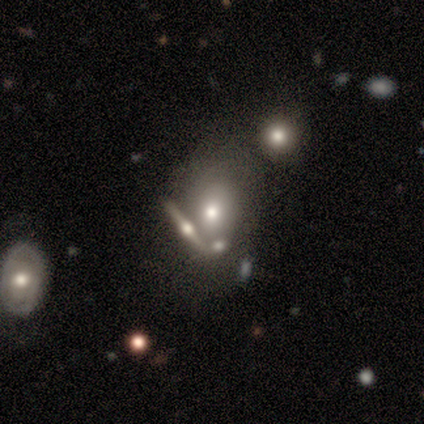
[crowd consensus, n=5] smooth_or_featured: smooth (p=0.60) [alt: featured or disk p=0.40]
how_rounded: round (p=0.67) [alt: in between p=0.33]
merging: none (p=0.60) [alt: merger p=0.40]